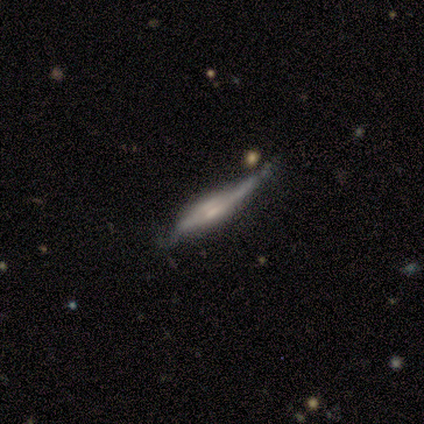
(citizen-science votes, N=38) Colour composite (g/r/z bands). It shows a featured or disk galaxy (79%) viewed edge-on (90%) with a boxy central bulge (52%). Merging: none (37%, tied with minor disturbance).